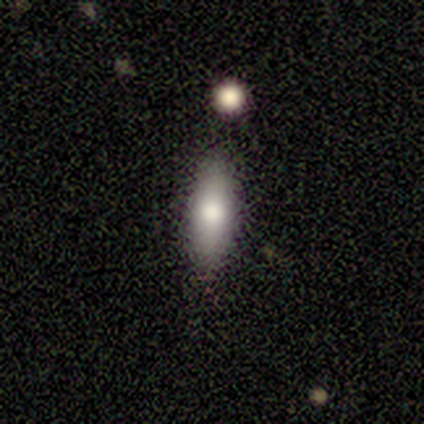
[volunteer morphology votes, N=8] Smooth or featured: smooth — 62% (featured or disk — 25%)
How rounded: cigar-shaped — 60% (in between — 40%)
Merging: none — 100%